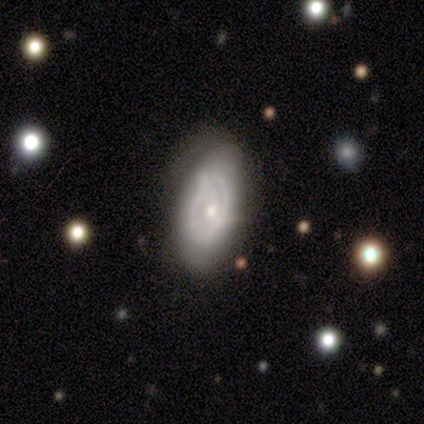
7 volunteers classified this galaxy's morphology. Q: Smooth or featured?
A: featured or disk (57%); runner-up: smooth (43%)
Q: Edge-on disk?
A: no (100%)
Q: Bar?
A: weak (50%); tied with: no (50%)
Q: Spiral arms?
A: yes (50%); tied with: no (50%)
Q: Spiral winding?
A: loose (100%)
Q: Spiral arm count?
A: 1 (50%); tied with: 2 (50%)
Q: Bulge size?
A: small (100%)
Q: Merging?
A: minor disturbance (71%); runner-up: none (29%)